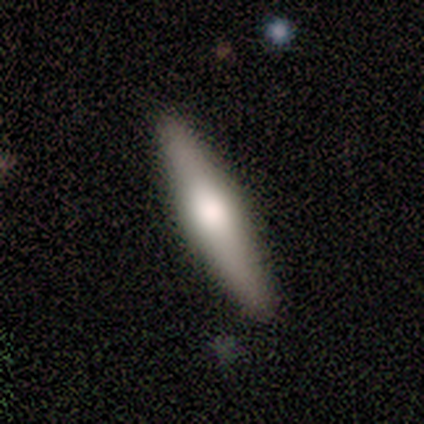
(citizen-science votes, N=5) Smooth or featured: featured or disk — 80% (smooth — 20%)
Edge-on disk: yes — 75% (no — 25%)
Edge-on bulge: rounded — 100%
Merging: none — 100%